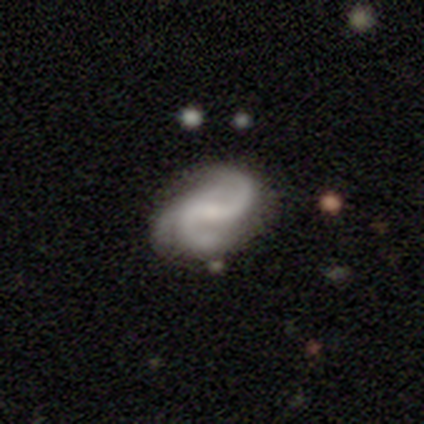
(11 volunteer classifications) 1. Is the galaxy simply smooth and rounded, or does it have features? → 82% featured or disk, 18% smooth, 0% star or artifact.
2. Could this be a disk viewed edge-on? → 100% no, 0% yes.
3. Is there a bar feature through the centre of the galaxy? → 44% weak (tied), 44% no (tied), 11% strong.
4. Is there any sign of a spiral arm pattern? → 100% yes, 0% no.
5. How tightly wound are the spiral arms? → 56% loose, 33% medium, 11% tight.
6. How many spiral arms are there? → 44% 2 (tied), 44% 3 (tied), 11% 4, 0% 1, 0% more than 4, 0% can't tell.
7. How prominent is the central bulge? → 56% small, 22% moderate, 22% none, 0% dominant, 0% large.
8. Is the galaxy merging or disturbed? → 55% none, 27% minor disturbance, 9% major disturbance, 9% merger.